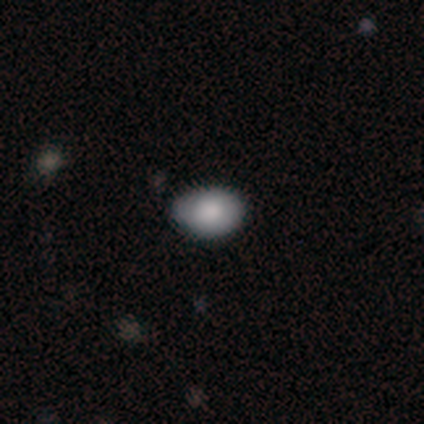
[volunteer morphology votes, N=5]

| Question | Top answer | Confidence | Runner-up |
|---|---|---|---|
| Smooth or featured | smooth | 80% | featured or disk (20%) |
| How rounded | in between | 75% | round (25%) |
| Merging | none | 60% | minor disturbance (20%) |